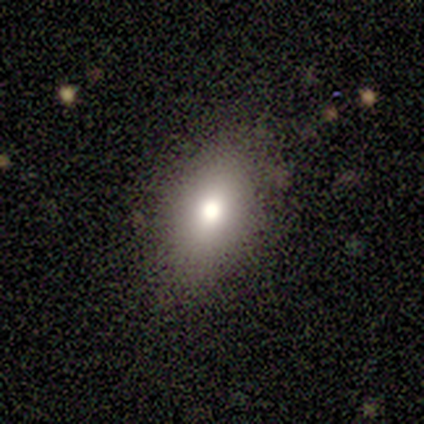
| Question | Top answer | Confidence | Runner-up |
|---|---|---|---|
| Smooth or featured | smooth | 80% | featured or disk (20%) |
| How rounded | in between | 75% | round (25%) |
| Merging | none | 100% | — |